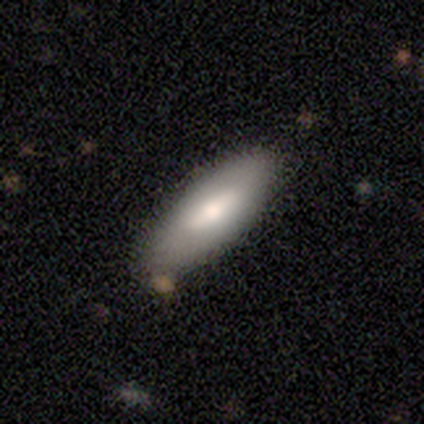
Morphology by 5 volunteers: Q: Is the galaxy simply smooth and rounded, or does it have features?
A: smooth — 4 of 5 (80%).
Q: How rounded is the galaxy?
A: in between — 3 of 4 (75%).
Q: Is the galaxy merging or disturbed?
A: none — 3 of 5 (60%).